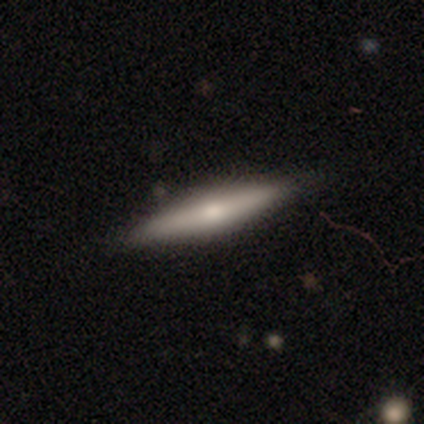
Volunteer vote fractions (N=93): A featured or disk galaxy (54%) viewed edge-on (96%) with a rounded central bulge (88%). Merging: none (88%).